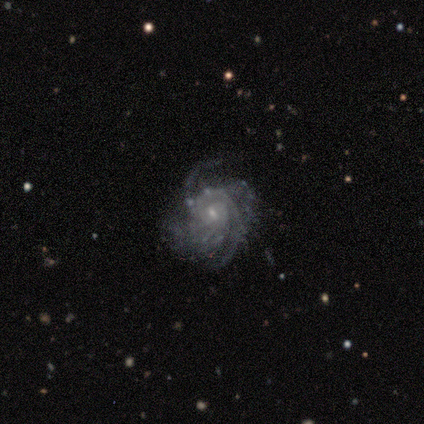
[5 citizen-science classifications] smooth_or_featured: featured or disk (p=1.00)
disk_edge_on: no (p=1.00)
bar: weak (p=0.40) [tied with: no p=0.40]
has_spiral_arms: yes (p=1.00)
spiral_winding: tight (p=0.80) [alt: medium p=0.20]
spiral_arm_count: can't tell (p=0.40) [alt: 2 p=0.20]
bulge_size: small (p=1.00)
merging: none (p=1.00)